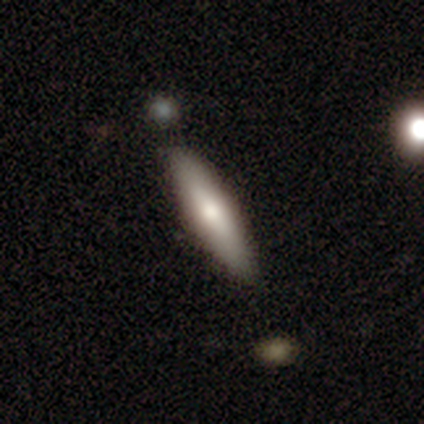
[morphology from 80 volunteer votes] This appears to be a smooth galaxy with no disk features (65%) that is cigar-shaped (79%). Merging: none (40%).